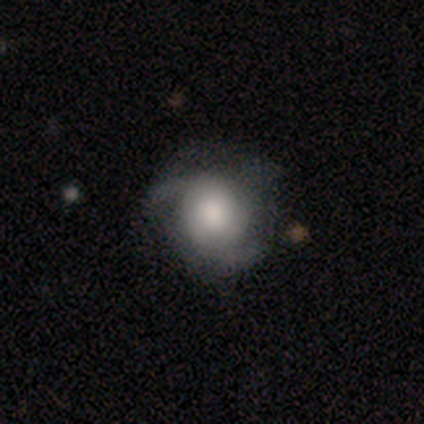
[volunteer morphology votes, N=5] A featured or disk galaxy (80%) with a weak bar (50%, tied with no), 2 (75%) medium (75%) spiral arms (100%) and a large central bulge (50%, tied with moderate). Merging: none (60%).